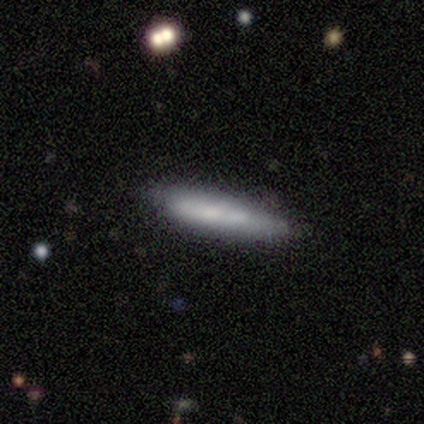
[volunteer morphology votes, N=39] Smooth or featured? 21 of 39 (54%) said smooth. How rounded? 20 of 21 (95%) said cigar-shaped. Merging? 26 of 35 (74%) said none.